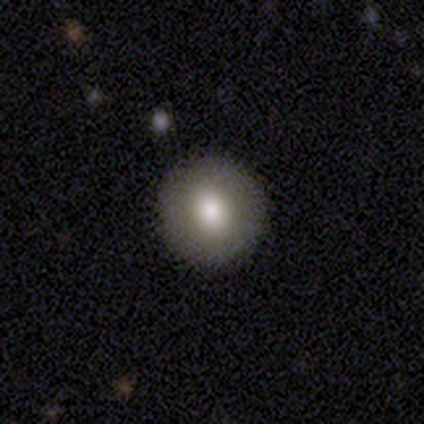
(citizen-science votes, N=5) smooth 80%, featured or disk 20%, star or artifact 0%. Down the decision tree: how rounded — round (100%); merging — none (100%).